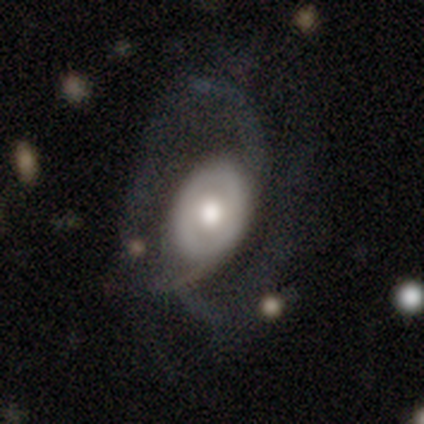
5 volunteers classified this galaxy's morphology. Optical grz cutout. It shows a featured or disk galaxy (100%) with no bar (80%), 2 (33%, tied with 3 and can't tell) tight (67%) spiral arms (60%) and a moderate central bulge (100%). Merging: major disturbance (80%).